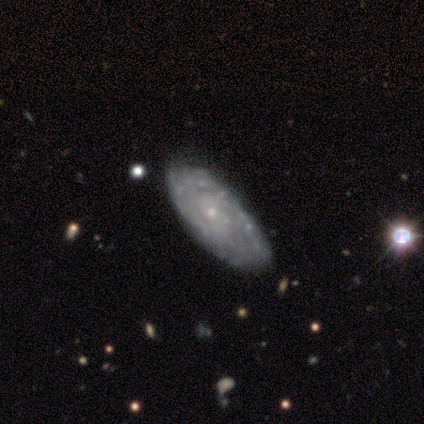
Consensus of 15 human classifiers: A featured or disk galaxy (80%) with no bar (83%), tight (82%) spiral arms (92%) and a small central bulge (92%). Merging: none (80%).